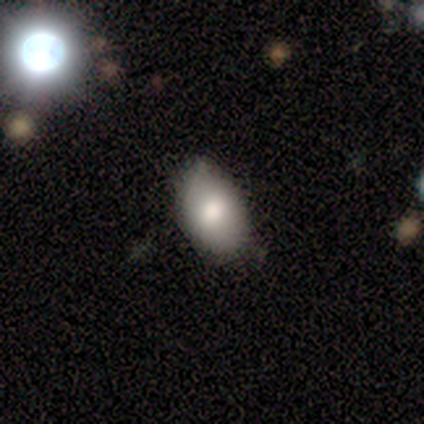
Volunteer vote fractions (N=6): smooth-or-featured: smooth: 67% | featured or disk: 17% | star or artifact: 17%
  how-rounded: in between: 75% | round: 25% | cigar-shaped: 0%
  merging: none: 60% | minor disturbance: 20% | major disturbance: 20% | merger: 0%